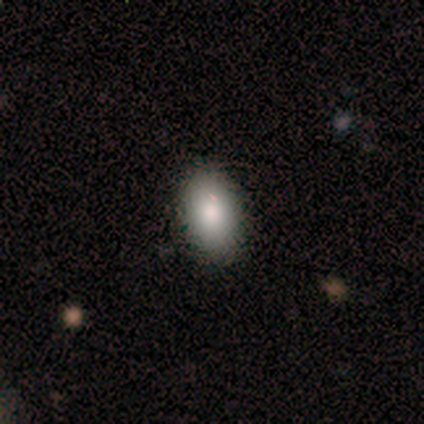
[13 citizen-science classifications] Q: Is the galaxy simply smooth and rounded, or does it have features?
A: smooth — 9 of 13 (69%).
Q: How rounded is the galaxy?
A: in between — 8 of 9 (89%).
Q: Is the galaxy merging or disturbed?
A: none — 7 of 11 (64%).